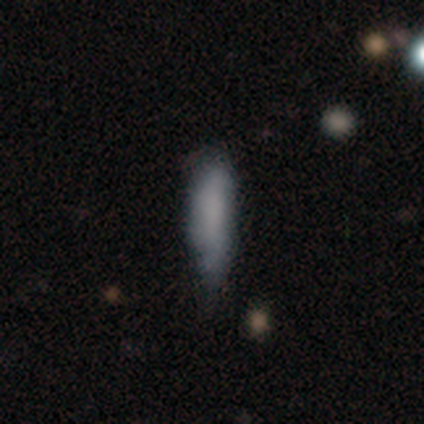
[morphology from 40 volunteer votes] This is clearly a smooth galaxy (80%). How rounded: likely cigar-shaped (69%). Merging: possibly none (55%).